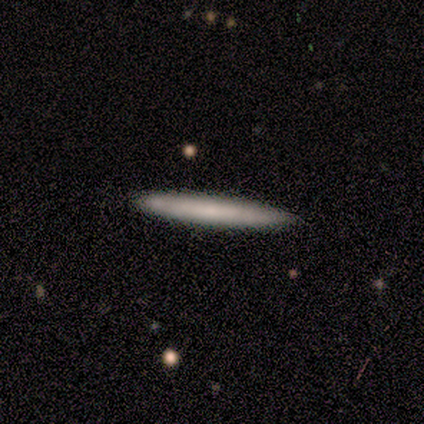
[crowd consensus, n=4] Volunteers were most divided on "smooth or featured": smooth: 75%, featured or disk: 25%, star or artifact: 0%. More confident: how rounded — cigar-shaped (100%); merging — none (100%).